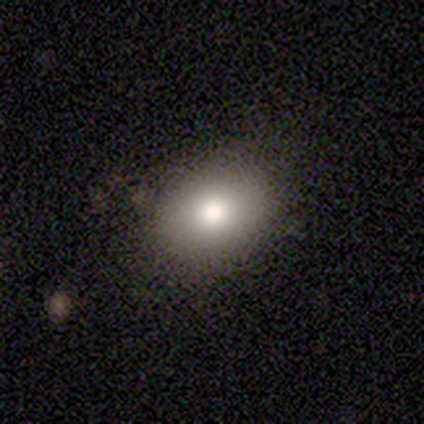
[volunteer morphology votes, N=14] Smooth or featured? 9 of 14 (64%) said smooth. How rounded? 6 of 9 (67%) said in between. Merging? 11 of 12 (92%) said none.